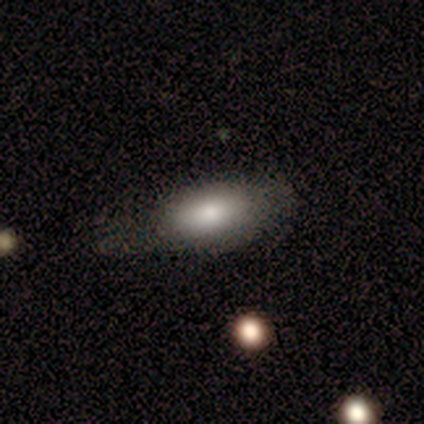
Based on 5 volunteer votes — This is clearly a smooth galaxy (80%). How rounded: clearly in between (100%). Merging: marginally minor disturbance (40%, tied with major disturbance).